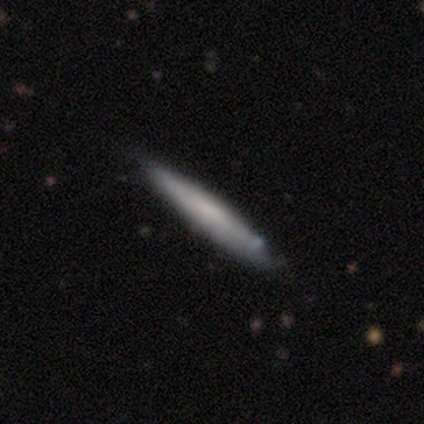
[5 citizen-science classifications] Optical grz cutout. It shows a smooth galaxy with no disk features (60%) that is cigar-shaped (67%). Merging: none (60%).